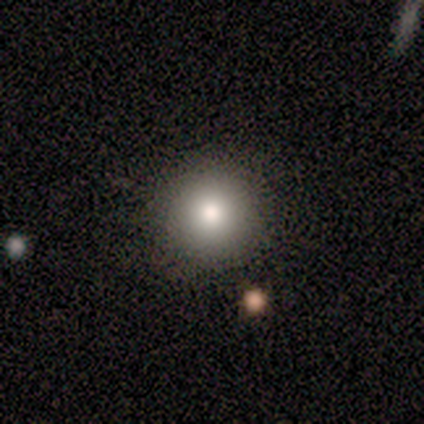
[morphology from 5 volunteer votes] This is likely a smooth galaxy (60%). How rounded: clearly round (100%). Merging: clearly none (100%).